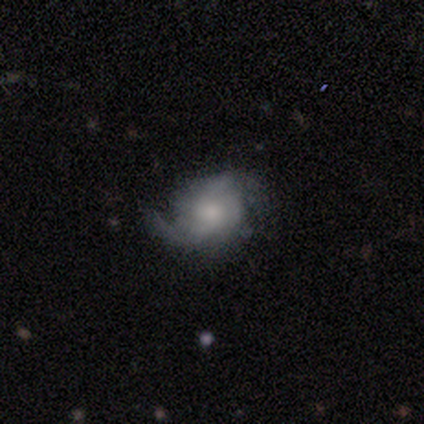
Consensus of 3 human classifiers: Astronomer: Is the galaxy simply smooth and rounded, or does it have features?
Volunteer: featured or disk — 100%.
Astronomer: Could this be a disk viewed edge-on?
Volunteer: no — 100%.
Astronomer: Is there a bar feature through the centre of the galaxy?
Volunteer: no — 100%.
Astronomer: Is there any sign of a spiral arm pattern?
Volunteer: yes — 100%.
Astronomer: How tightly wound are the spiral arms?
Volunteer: medium — 100%.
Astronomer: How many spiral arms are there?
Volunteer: can't tell — 67%.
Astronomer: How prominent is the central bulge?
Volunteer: large — 33%, tied with small and none at 33%.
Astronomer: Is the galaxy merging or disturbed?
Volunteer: none — 67%.